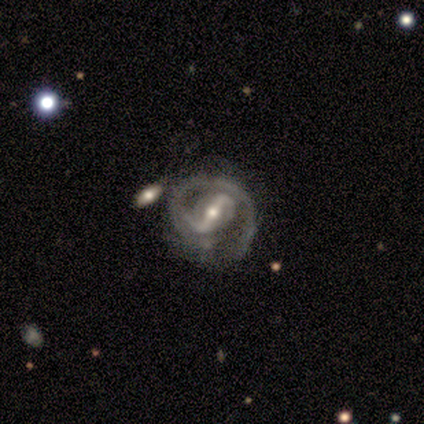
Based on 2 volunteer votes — featured or disk 100%, smooth 0%, star or artifact 0%. Down the decision tree: edge-on disk — no (100%); bar — strong (50%, tied with weak); spiral arms — yes (100%); spiral arm count — 1 (50%, tied with 2); spiral winding — tight (50%, tied with medium); bulge size — moderate (100%); merging — none (50%, tied with merger).